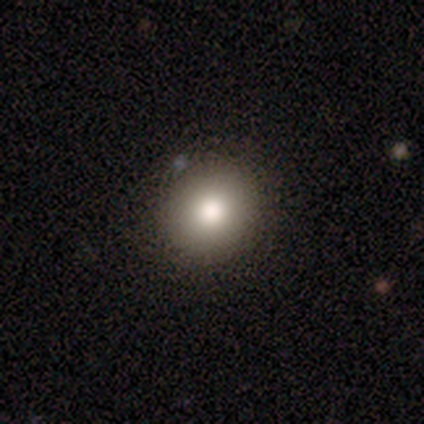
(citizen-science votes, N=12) smooth-or-featured: smooth: 100% | featured or disk: 0% | star or artifact: 0%
  how-rounded: round: 58% | in between: 42% | cigar-shaped: 0%
  merging: none: 92% | minor disturbance: 8% | major disturbance: 0% | merger: 0%